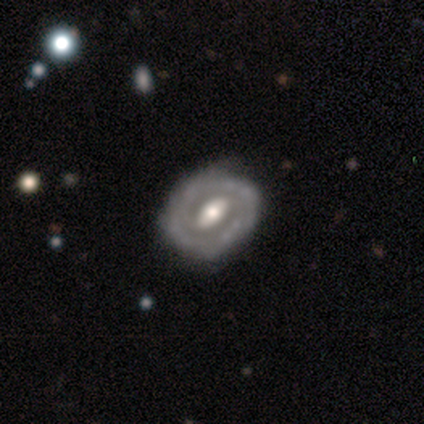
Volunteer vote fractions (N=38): smooth-or-featured: featured or disk: 89% | smooth: 8% | star or artifact: 3%
  disk-edge-on: no: 97% | yes: 3%
    bar: strong: 42% | weak: 30% | no: 27%
    has-spiral-arms: yes: 55% | no: 45%
      spiral-winding: tight: 56% | medium: 28% | loose: 17%
      spiral-arm-count: 2: 44% | 1: 22% | 3: 17% | can't tell: 17% | 4: 0% | more than 4: 0%
    bulge-size: moderate: 67% | large: 27% | small: 3% | none: 3% | dominant: 0%
  merging: none: 51% | minor disturbance: 8% | major disturbance: 5% | merger: 0%